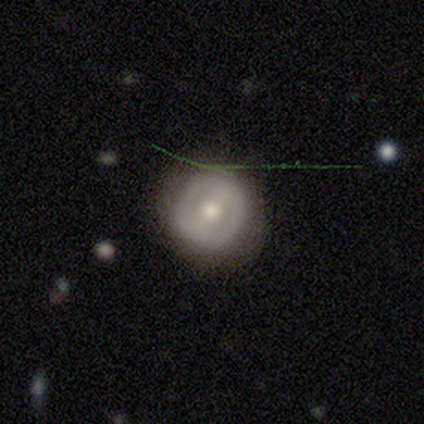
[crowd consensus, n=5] smooth-or-featured: featured or disk: 100% | smooth: 0% | star or artifact: 0%
  disk-edge-on: no: 100% | yes: 0%
    bar: weak: 80% | no: 20% | strong: 0%
    has-spiral-arms: no: 100% | yes: 0%
    bulge-size: moderate: 100% | dominant: 0% | large: 0% | small: 0% | none: 0%
  merging: none: 80% | minor disturbance: 20% | major disturbance: 0% | merger: 0%